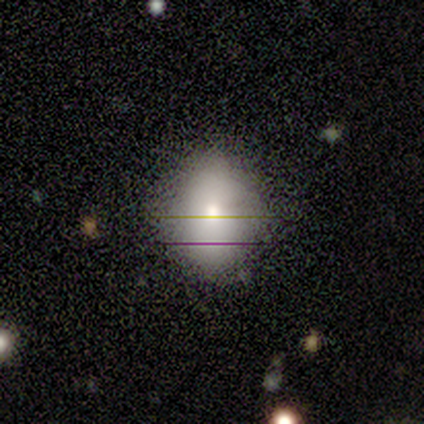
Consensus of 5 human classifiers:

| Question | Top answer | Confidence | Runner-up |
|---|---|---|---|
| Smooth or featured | smooth | 40% | tied: featured or disk (40%) |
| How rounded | round | 50% | tied: in between (50%) |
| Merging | none | 50% | tied: minor disturbance (50%) |